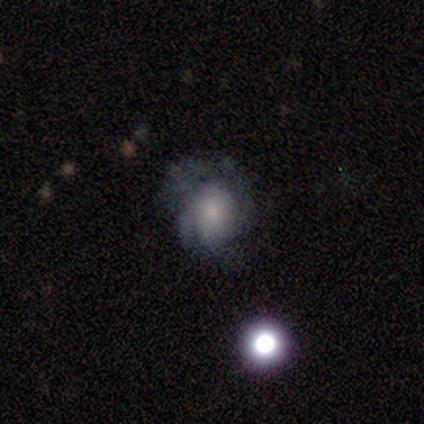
Smooth or featured? 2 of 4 (50%, tied with featured or disk) said smooth. How rounded? 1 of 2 (50%, tied with in between) said round. Merging? 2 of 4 (50%) said none.